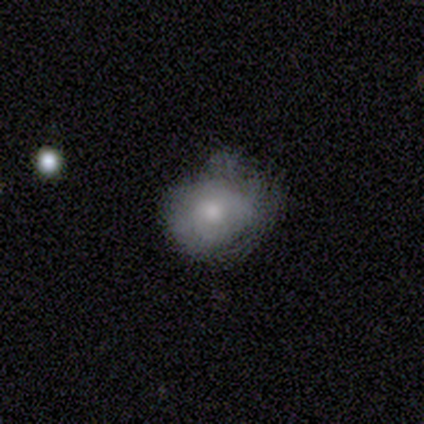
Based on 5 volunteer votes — This appears to be a smooth galaxy with no disk features (60%) that is round (67%). Merging: major disturbance (50%).